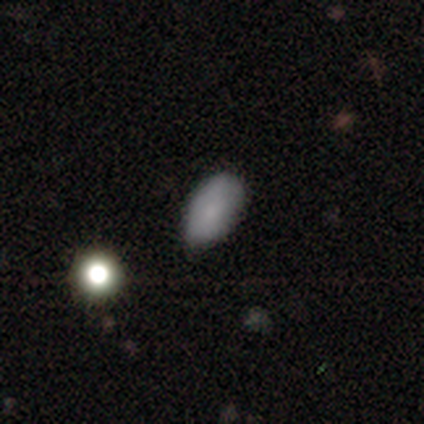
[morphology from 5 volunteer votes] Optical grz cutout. It shows a smooth galaxy with no disk features (100%) that is in between round and cigar-shaped (100%). Merging: none (60%).